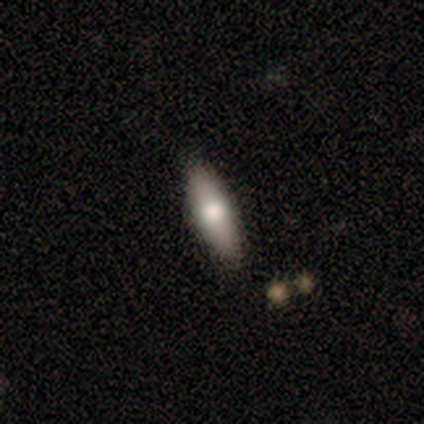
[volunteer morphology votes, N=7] This is clearly a smooth galaxy (100%). How rounded: clearly in between (86%). Merging: clearly none (86%).